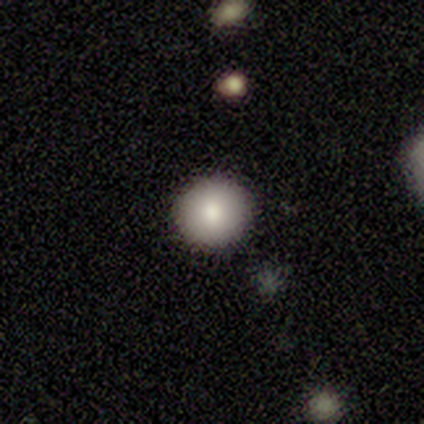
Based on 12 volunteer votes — smooth 92%, star or artifact 8%, featured or disk 0%. Down the decision tree: how rounded — round (100%); merging — none (91%).